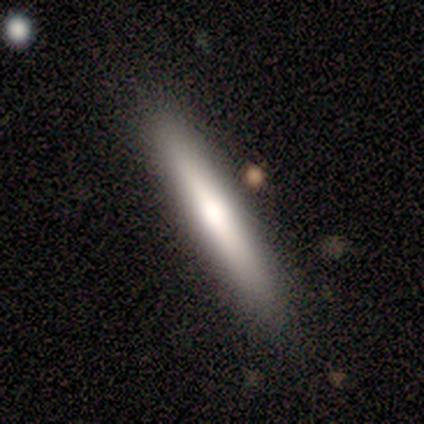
A smooth galaxy with no disk features (50%, tied with featured or disk) that is cigar-shaped (100%).

Vote fractions:
- Smooth or featured? smooth: 50% (tied) / featured or disk: 50% (tied) / star or artifact: 0%
- How rounded? cigar-shaped: 100% / round: 0% / in between: 0%
- Merging? none: 100% / minor disturbance: 0% / major disturbance: 0% / merger: 0%